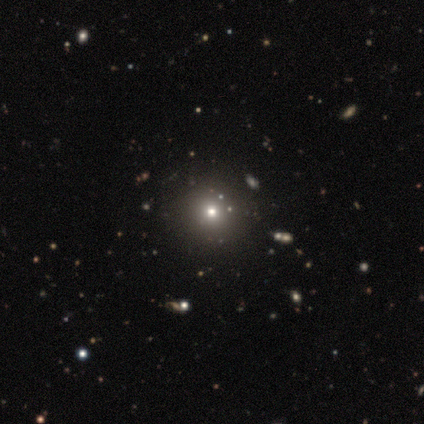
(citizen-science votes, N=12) Volunteers were most divided on "smooth or featured": smooth: 67%, star or artifact: 33%, featured or disk: 0%. More confident: how rounded — round (100%); merging — none (100%).